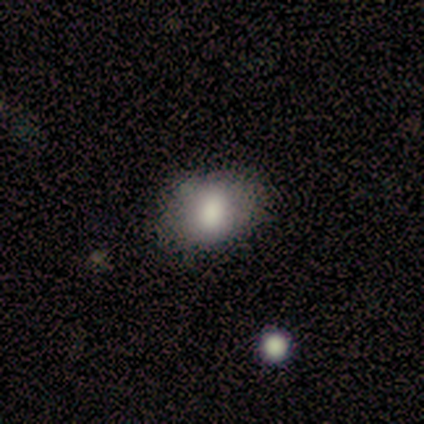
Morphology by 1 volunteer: smooth-or-featured: featured or disk: 100% | smooth: 0% | star or artifact: 0%
  disk-edge-on: no: 100% | yes: 0%
    bar: no: 100% | strong: 0% | weak: 0%
    has-spiral-arms: no: 100% | yes: 0%
    bulge-size: small: 100% | dominant: 0% | large: 0% | moderate: 0% | none: 0%
  merging: none: 100% | minor disturbance: 0% | major disturbance: 0% | merger: 0%